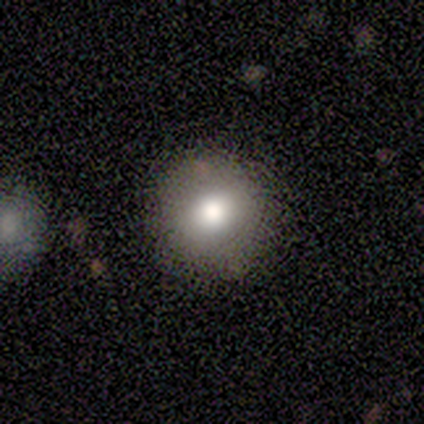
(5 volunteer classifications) Volunteers were most divided on "how rounded": in between: 60%, round: 40%, cigar-shaped: 0%. More confident: smooth or featured — smooth (100%); merging — none (80%).